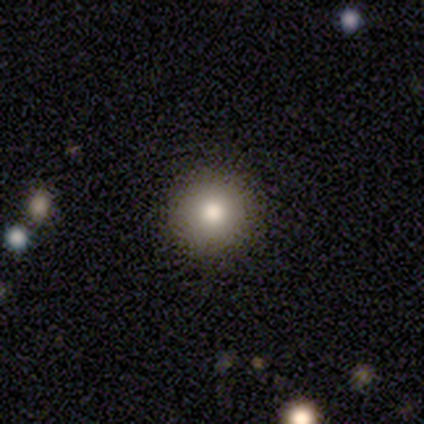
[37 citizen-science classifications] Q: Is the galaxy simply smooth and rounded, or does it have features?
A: smooth — 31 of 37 (84%).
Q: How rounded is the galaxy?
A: round — 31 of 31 (100%).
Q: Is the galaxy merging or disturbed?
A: none — 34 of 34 (100%).